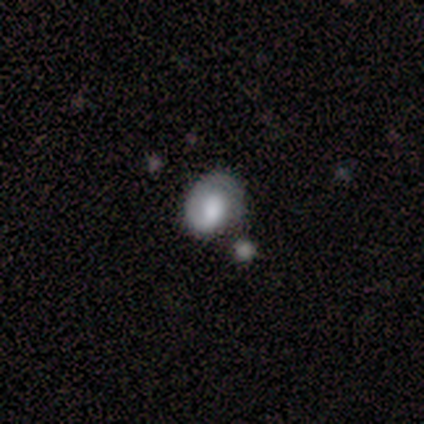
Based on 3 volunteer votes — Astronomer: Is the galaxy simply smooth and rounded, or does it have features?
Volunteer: smooth — 67%.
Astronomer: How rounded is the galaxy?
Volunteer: in between — 100%.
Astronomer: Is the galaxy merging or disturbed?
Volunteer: none — 67%.